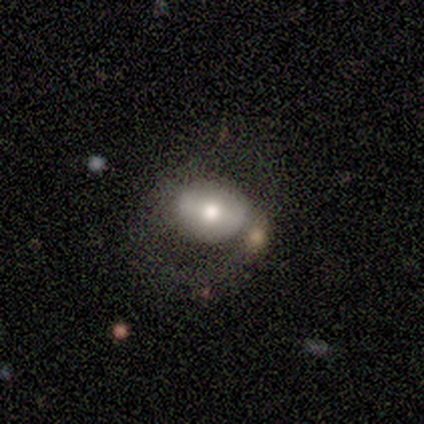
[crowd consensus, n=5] Morphology: type=smooth (60%); roundness=in between (67%); merging=none (50%, tied with major disturbance).